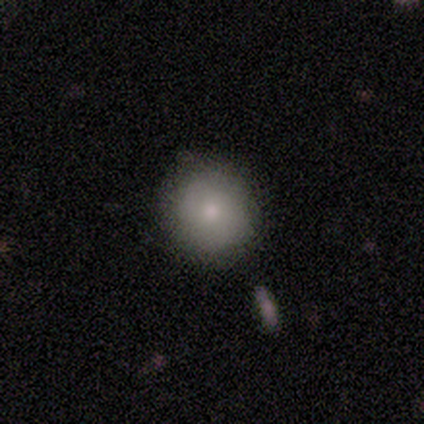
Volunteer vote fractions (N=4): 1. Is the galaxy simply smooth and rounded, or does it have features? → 75% smooth, 25% featured or disk, 0% star or artifact.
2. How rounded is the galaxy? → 100% round, 0% in between, 0% cigar-shaped.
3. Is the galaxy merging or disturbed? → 100% none, 0% minor disturbance, 0% major disturbance, 0% merger.